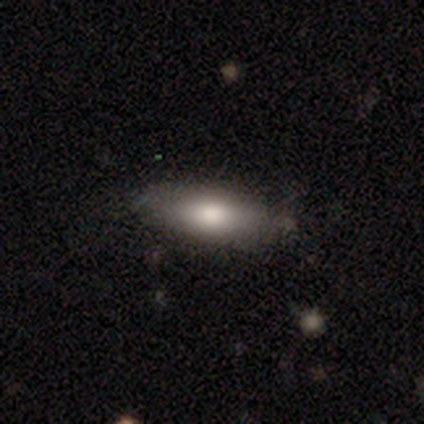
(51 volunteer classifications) Overall: smooth (65%; featured or disk 31%). How rounded: in between (61%; cigar-shaped 39%). Merging: none (63%; minor disturbance 27%).